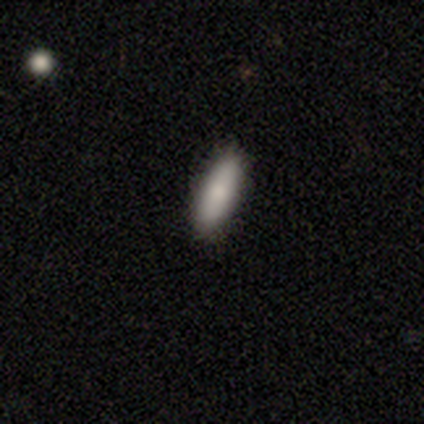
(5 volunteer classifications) smooth_or_featured: smooth (p=1.00)
how_rounded: in between (p=1.00)
merging: none (p=0.80) [alt: merger p=0.20]